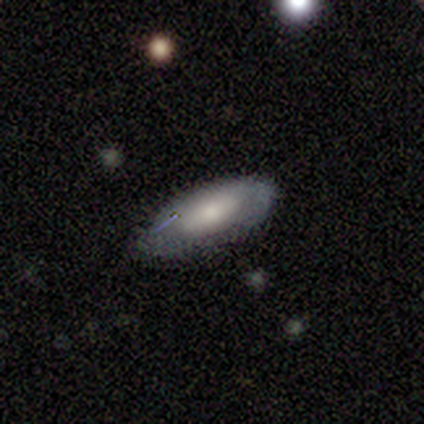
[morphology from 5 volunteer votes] This appears to be a smooth galaxy with no disk features (60%) that is in between round and cigar-shaped (100%). Merging: minor disturbance (80%).